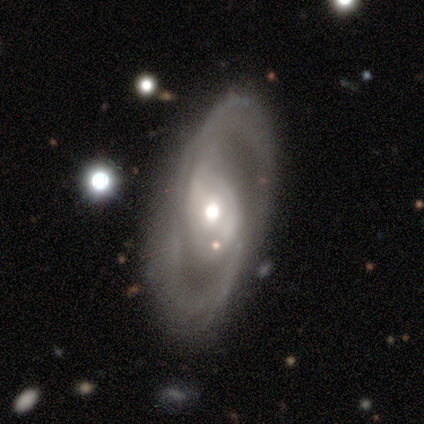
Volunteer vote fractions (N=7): A featured or disk galaxy (100%) with a strong bar (43%, tied with no), 2 (83%) medium (50%) spiral arms (86%) and a moderate central bulge (71%).

Vote fractions:
- Smooth or featured? featured or disk: 100% / smooth: 0% / star or artifact: 0%
- Edge-on disk? no: 100% / yes: 0%
- Bar? strong: 43% (tied) / no: 43% (tied) / weak: 14%
- Spiral arms? yes: 86% / no: 14%
- Spiral winding? medium: 50% / tight: 33% / loose: 17%
- Spiral arm count? 2: 83% / can't tell: 17% / 1: 0% / 3: 0% / 4: 0% / more than 4: 0%
- Bulge size? moderate: 71% / large: 14% / small: 14% / dominant: 0% / none: 0%
- Merging? none: 86% / minor disturbance: 14% / major disturbance: 0% / merger: 0%